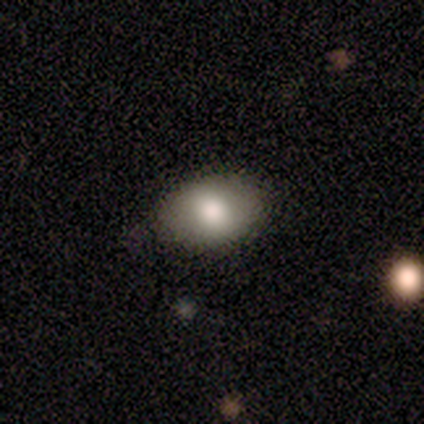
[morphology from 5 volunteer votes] Smooth or featured?
  - smooth: 60% *
  - featured or disk: 20%
  - star or artifact: 20%
How rounded?
  - in between: 67% *
  - round: 33%
  - cigar-shaped: 0%
Merging?
  - none: 100% *
  - minor disturbance: 0%
  - major disturbance: 0%
  - merger: 0%